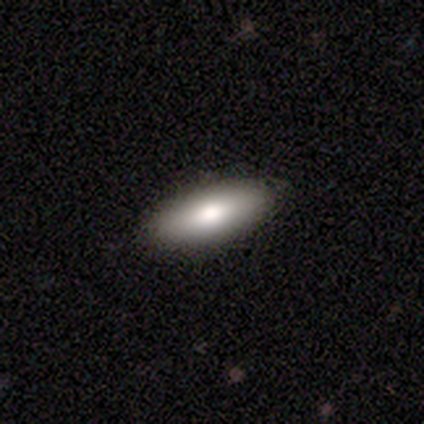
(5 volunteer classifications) A featured or disk galaxy (60%) with a strong bar (33%, tied with weak and no), no spiral arms (100%) and a moderate central bulge (67%).

Vote fractions:
- Smooth or featured? featured or disk: 60% / smooth: 40% / star or artifact: 0%
- Edge-on disk? no: 100% / yes: 0%
- Bar? strong: 33% (tied) / weak: 33% (tied) / no: 33% (tied)
- Spiral arms? no: 100% / yes: 0%
- Bulge size? moderate: 67% / large: 33% / dominant: 0% / small: 0% / none: 0%
- Merging? none: 80% / minor disturbance: 20% / major disturbance: 0% / merger: 0%